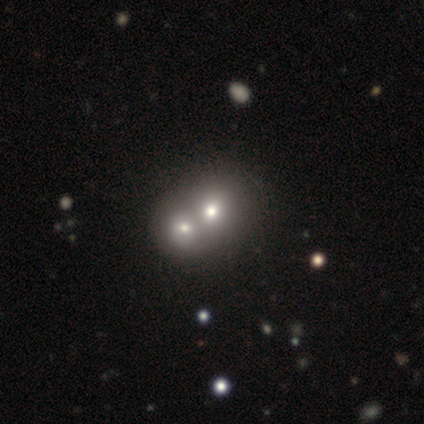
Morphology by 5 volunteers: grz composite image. It shows a smooth galaxy with no disk features (60%) that is round (67%). Merging: merger (100%).